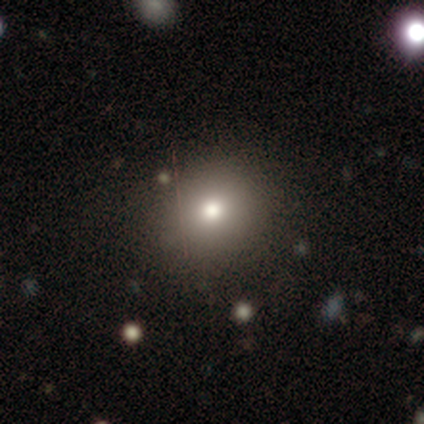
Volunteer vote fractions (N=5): This is clearly a smooth galaxy (80%). How rounded: likely round (75%). Merging: clearly none (100%).